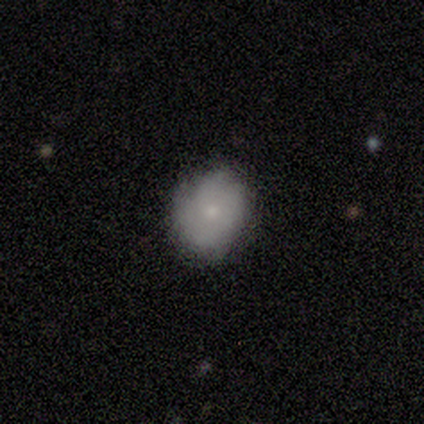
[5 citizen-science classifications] Smooth or featured?
  - featured or disk: 80% *
  - smooth: 20%
  - star or artifact: 0%
Edge-on disk?
  - no: 100% *
  - yes: 0%
Bar?
  - no: 75% *
  - weak: 25%
  - strong: 0%
Spiral arms?
  - yes: 75% *
  - no: 25%
Spiral winding?
  - loose: 67% *
  - tight: 33%
  - medium: 0%
Spiral arm count?
  - 2: 33% * (tied)
  - more than 4: 33% * (tied)
  - can't tell: 33% * (tied)
  - 1: 0%
  - 3: 0%
  - 4: 0%
Bulge size?
  - small: 50% *
  - moderate: 25%
  - none: 25%
  - dominant: 0%
  - large: 0%
Merging?
  - none: 80% *
  - major disturbance: 20%
  - minor disturbance: 0%
  - merger: 0%